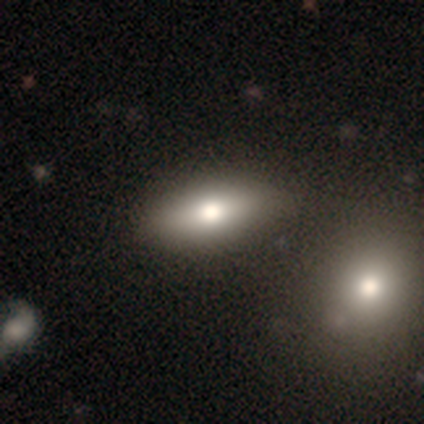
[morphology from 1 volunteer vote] Overall: featured or disk (100%). Edge-on disk: yes (100%). Edge-on bulge: rounded (100%). Merging: none (100%).